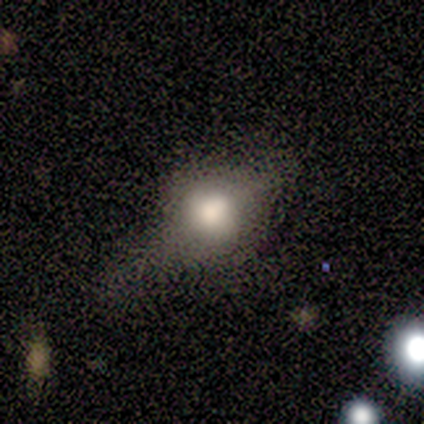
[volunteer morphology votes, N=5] smooth_or_featured: smooth (p=0.60) [alt: featured or disk p=0.40]
how_rounded: in between (p=0.67) [alt: round p=0.33]
merging: none (p=0.60) [alt: minor disturbance p=0.20]